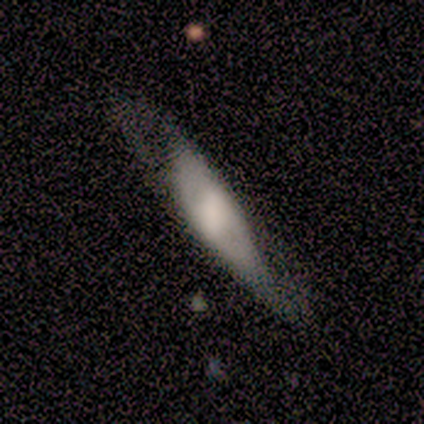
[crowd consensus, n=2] Overall: smooth (100%). How rounded: in between (100%). Merging: none (50%, tied with major disturbance).